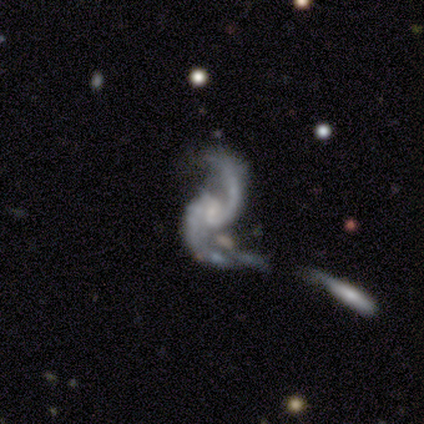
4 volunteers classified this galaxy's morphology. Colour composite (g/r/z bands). It shows a featured or disk galaxy (100%) with no bar (75%), 2 (100%) loose (75%) spiral arms (100%) and no central bulge (50%). Merging: merger (50%).